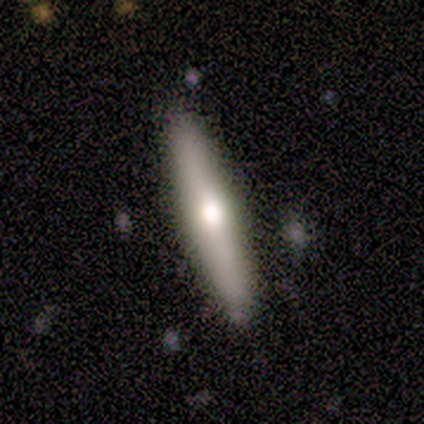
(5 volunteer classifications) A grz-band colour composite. It shows a featured or disk galaxy (80%) viewed edge-on (75%) with a rounded central bulge (100%). Merging: none (80%).